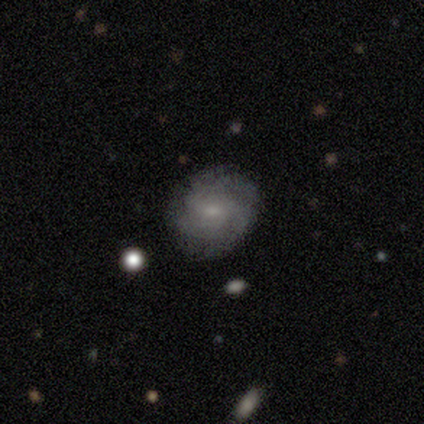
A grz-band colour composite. It shows a featured or disk galaxy (71%) with no bar (80%), 4 (50%) tight (50%, tied with medium) spiral arms (80%) and a small central bulge (60%). Merging: none (67%).